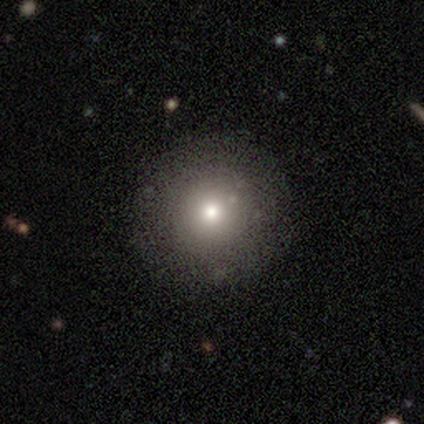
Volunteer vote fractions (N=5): smooth 80%, star or artifact 20%, featured or disk 0%. Down the decision tree: how rounded — round (100%); merging — none (100%).